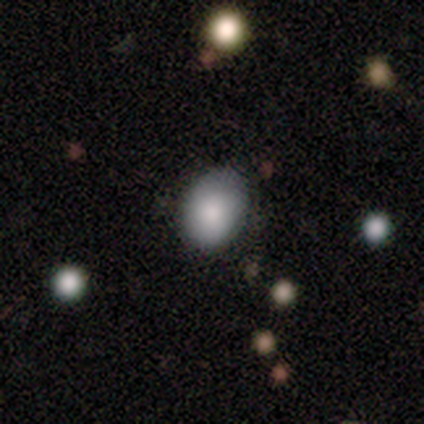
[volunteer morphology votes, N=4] Smooth or featured? 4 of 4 (100%) said smooth. How rounded? 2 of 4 (50%) said in between. Merging? 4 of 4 (100%) said none.